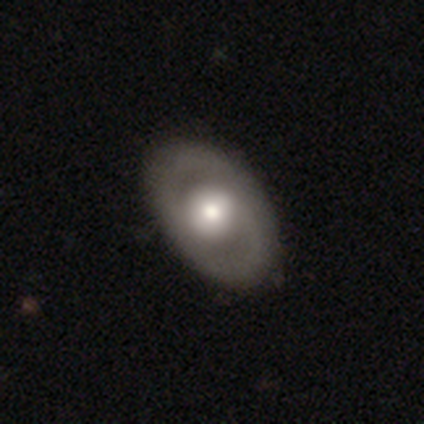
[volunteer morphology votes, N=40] smooth-or-featured: featured or disk: 57% | smooth: 35% | star or artifact: 8%
  disk-edge-on: no: 100% | yes: 0%
    bar: no: 74% | weak: 17% | strong: 9%
    has-spiral-arms: no: 61% | yes: 39%
    bulge-size: moderate: 70% | large: 22% | small: 9% | dominant: 0% | none: 0%
  merging: none: 65% | minor disturbance: 5% | major disturbance: 0% | merger: 0%